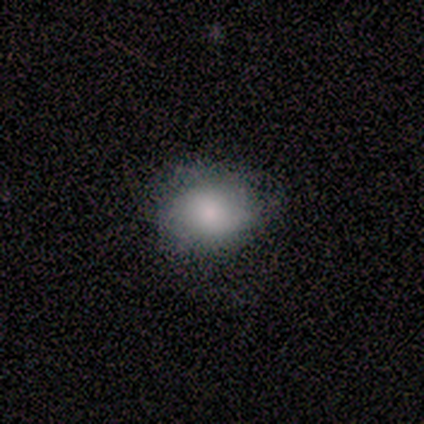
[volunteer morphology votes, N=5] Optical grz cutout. It shows a smooth galaxy with no disk features (100%) that is in between round and cigar-shaped (60%). Merging: none (100%).